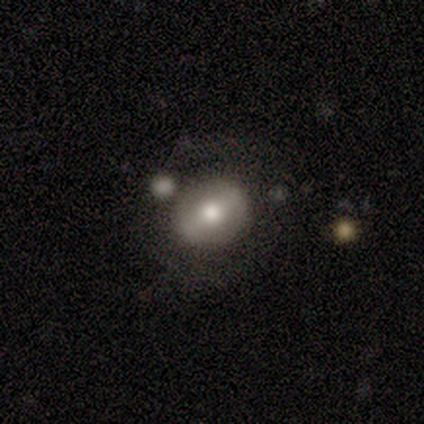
smooth-or-featured: smooth: 60% | featured or disk: 40% | star or artifact: 0%
  how-rounded: round: 67% | in between: 33% | cigar-shaped: 0%
  merging: none: 40% (tied) | minor disturbance: 40% (tied) | merger: 20% | major disturbance: 0%